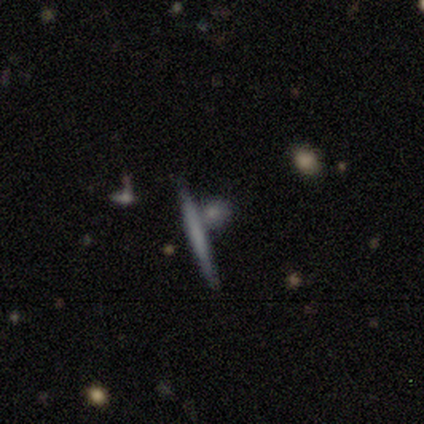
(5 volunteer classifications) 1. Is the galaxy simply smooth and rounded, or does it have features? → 60% smooth, 40% featured or disk, 0% star or artifact.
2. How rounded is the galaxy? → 67% cigar-shaped, 33% round, 0% in between.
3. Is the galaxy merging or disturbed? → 80% none, 20% merger, 0% minor disturbance, 0% major disturbance.